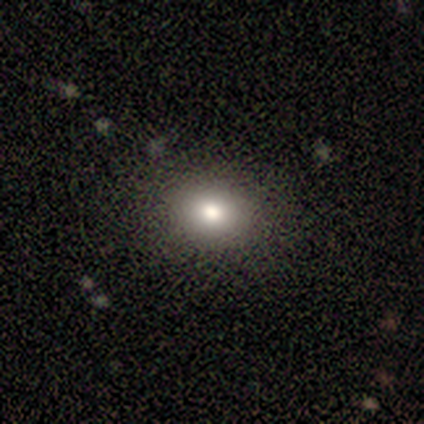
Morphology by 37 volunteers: smooth_or_featured: smooth (p=0.84) [alt: featured or disk p=0.08]
how_rounded: round (p=0.55) [alt: in between p=0.45]
merging: none (p=0.94) [alt: minor disturbance p=0.06]